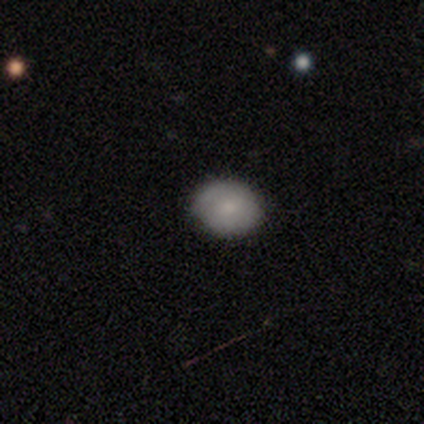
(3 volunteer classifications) A smooth galaxy with no disk features (100%) that is in between round and cigar-shaped (67%). Merging: none (67%).